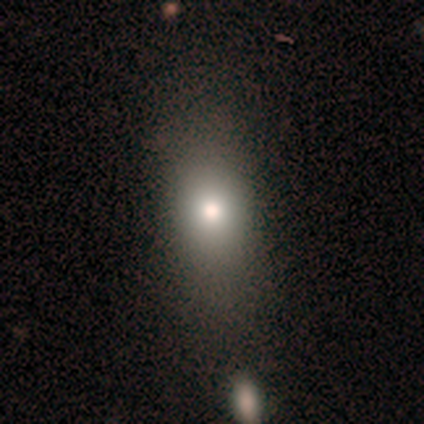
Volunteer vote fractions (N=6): A smooth galaxy with no disk features (100%) that is in between round and cigar-shaped (100%).

Vote fractions:
- Smooth or featured? smooth: 100% / featured or disk: 0% / star or artifact: 0%
- How rounded? in between: 100% / round: 0% / cigar-shaped: 0%
- Merging? none: 50% / minor disturbance: 17% / major disturbance: 17% / merger: 17%